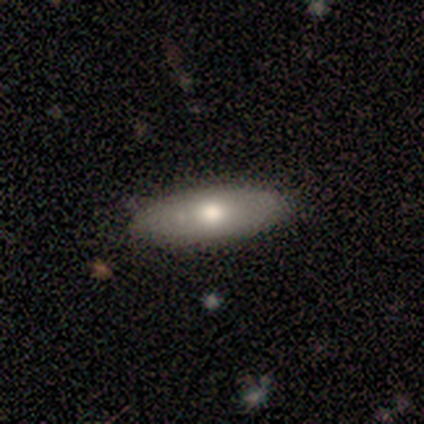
Smooth or featured? smooth (60%)
How rounded? in between (100%)
Merging? none (60%)